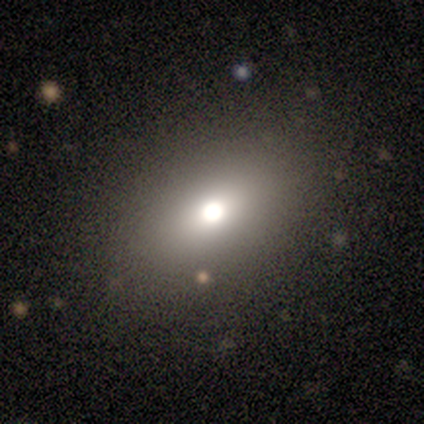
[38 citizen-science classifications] Smooth or featured? 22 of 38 (58%) said smooth. How rounded? 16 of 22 (73%) said in between. Merging? 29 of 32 (91%) said none.